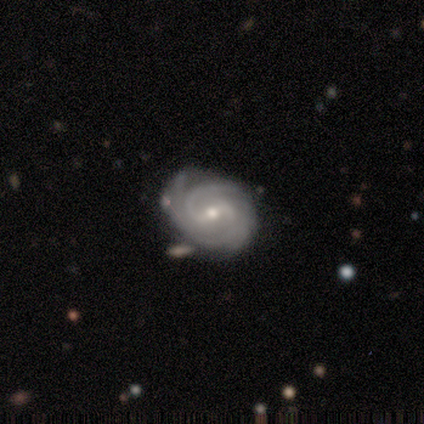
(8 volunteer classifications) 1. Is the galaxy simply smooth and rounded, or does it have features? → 75% featured or disk, 25% star or artifact, 0% smooth.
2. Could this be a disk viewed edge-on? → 100% no, 0% yes.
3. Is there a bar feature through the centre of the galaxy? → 50% weak, 33% no, 17% strong.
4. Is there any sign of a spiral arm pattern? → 100% yes, 0% no.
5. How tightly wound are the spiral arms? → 50% tight (tied), 50% medium (tied), 0% loose.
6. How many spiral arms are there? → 50% 2, 33% can't tell, 17% more than 4, 0% 1, 0% 3, 0% 4.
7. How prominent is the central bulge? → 83% small, 17% moderate, 0% dominant, 0% large, 0% none.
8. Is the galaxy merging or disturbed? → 33% none (tied), 33% minor disturbance (tied), 33% merger (tied), 0% major disturbance.